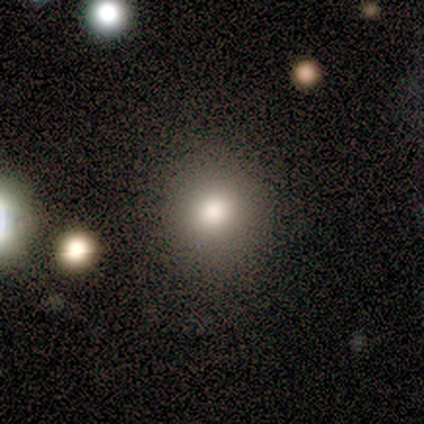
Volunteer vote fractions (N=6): smooth-or-featured: smooth: 100% | featured or disk: 0% | star or artifact: 0%
  how-rounded: in between: 67% | round: 33% | cigar-shaped: 0%
  merging: none: 67% | major disturbance: 33% | minor disturbance: 0% | merger: 0%